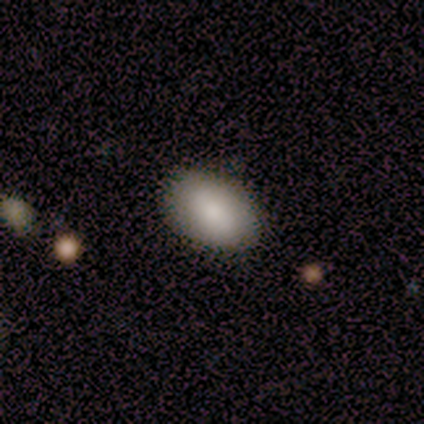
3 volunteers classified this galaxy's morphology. A smooth galaxy with no disk features (100%) that is in between round and cigar-shaped (100%).

Vote fractions:
- Smooth or featured? smooth: 100% / featured or disk: 0% / star or artifact: 0%
- How rounded? in between: 100% / round: 0% / cigar-shaped: 0%
- Merging? none: 100% / minor disturbance: 0% / major disturbance: 0% / merger: 0%